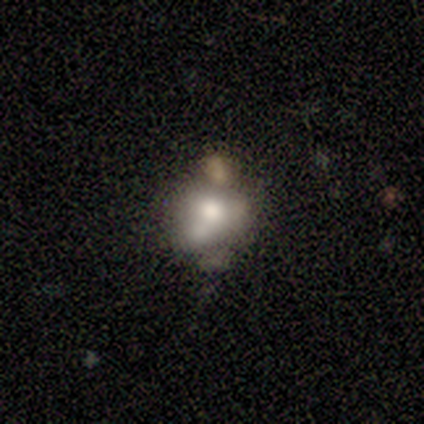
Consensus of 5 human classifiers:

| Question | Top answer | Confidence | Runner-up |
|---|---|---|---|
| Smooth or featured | smooth | 60% | star or artifact (40%) |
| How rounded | round | 67% | in between (33%) |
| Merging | none | 67% | merger (33%) |